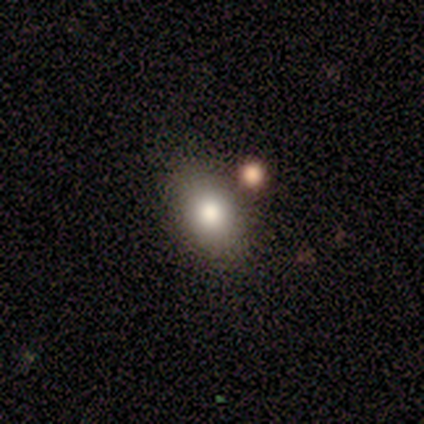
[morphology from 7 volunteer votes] smooth-or-featured: smooth: 86% | star or artifact: 14% | featured or disk: 0%
  how-rounded: in between: 83% | round: 17% | cigar-shaped: 0%
  merging: none: 83% | merger: 17% | minor disturbance: 0% | major disturbance: 0%